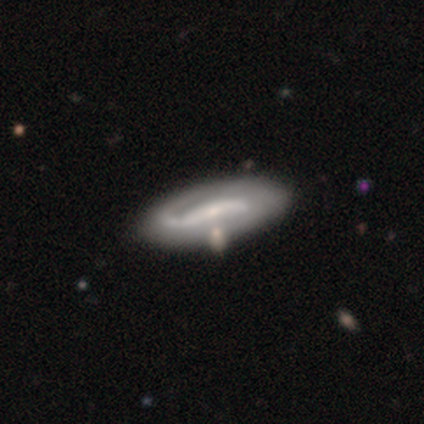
Q: Smooth or featured?
A: featured or disk (84%); runner-up: smooth (13%)
Q: Edge-on disk?
A: no (91%); runner-up: yes (9%)
Q: Bar?
A: strong (48%); runner-up: weak (30%)
Q: Spiral arms?
A: yes (88%); runner-up: no (12%)
Q: Spiral winding?
A: loose (45%); runner-up: medium (28%)
Q: Spiral arm count?
A: 2 (70%); runner-up: 1 (17%)
Q: Bulge size?
A: small (68%); runner-up: moderate (18%)
Q: Merging?
A: none (34%); runner-up: merger (11%)